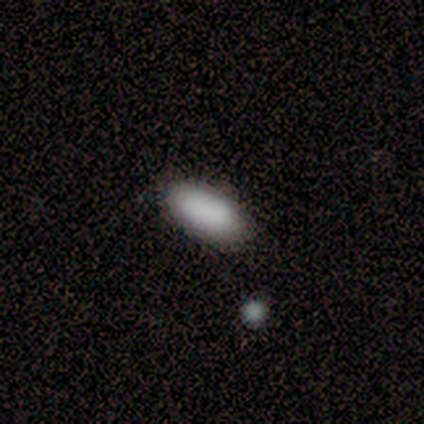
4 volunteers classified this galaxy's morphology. This appears to be a smooth galaxy with no disk features (100%) that is in between round and cigar-shaped (50%, tied with cigar-shaped). Merging: none (100%).